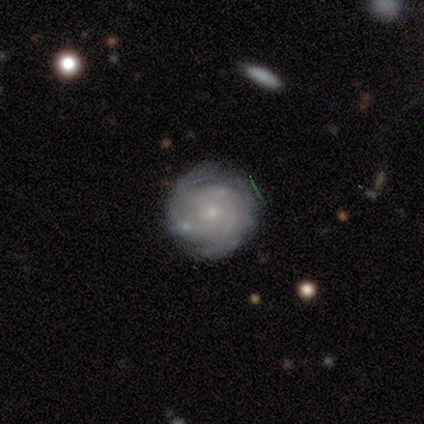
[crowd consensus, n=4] Smooth or featured? 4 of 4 (100%) said featured or disk. Edge-on disk? 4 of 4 (100%) said no. Bar? 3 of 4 (75%) said no. Spiral arms? 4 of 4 (100%) said yes. Spiral winding? 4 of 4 (100%) said tight. Spiral arm count? 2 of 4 (50%) said 2. Bulge size? 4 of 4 (100%) said small. Merging? 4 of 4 (100%) said none.